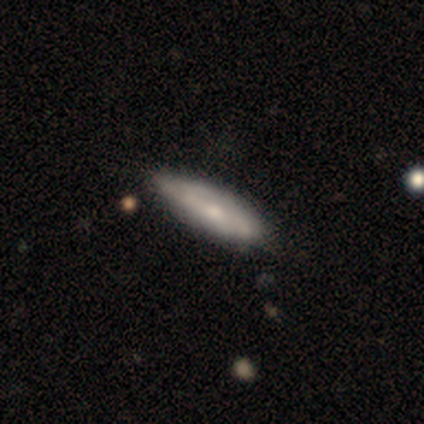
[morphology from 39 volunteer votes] smooth 51%, featured or disk 46%, star or artifact 3%. Down the decision tree: how rounded — cigar-shaped (65%); merging — none (47%).